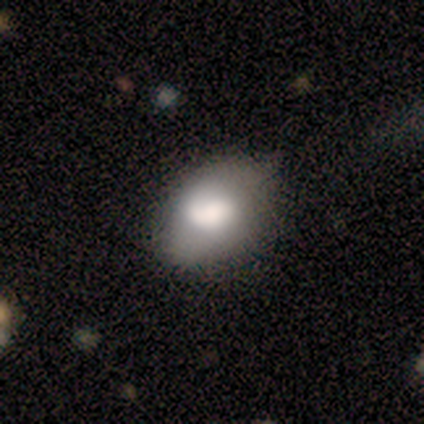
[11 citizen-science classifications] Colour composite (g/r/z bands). It shows a smooth galaxy with no disk features (55%) that is in between round and cigar-shaped (100%). Merging: minor disturbance (55%).